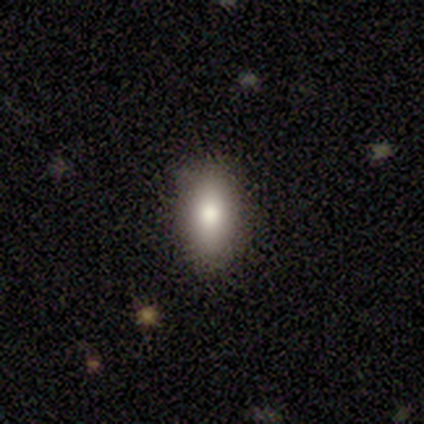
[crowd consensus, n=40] This appears to be a smooth galaxy with no disk features (78%) that is in between round and cigar-shaped (87%). Merging: none (81%).